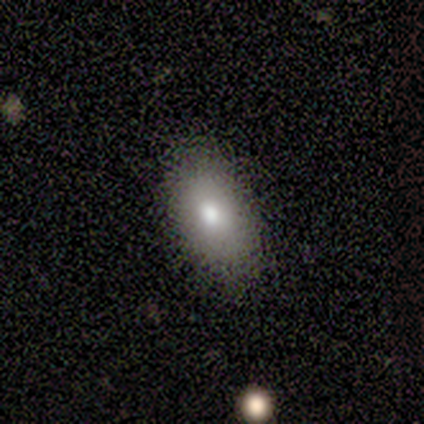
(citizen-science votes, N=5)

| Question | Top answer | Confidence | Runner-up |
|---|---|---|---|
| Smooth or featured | smooth | 80% | star or artifact (20%) |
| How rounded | in between | 75% | round (25%) |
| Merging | none | 100% | — |